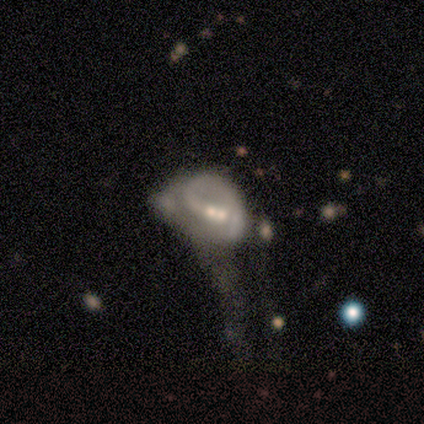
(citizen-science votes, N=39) Smooth or featured? 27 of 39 (69%) said featured or disk. Edge-on disk? 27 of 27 (100%) said no. Bar? 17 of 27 (63%) said no. Spiral arms? 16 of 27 (59%) said yes. Spiral winding? 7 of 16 (44%) said tight. Spiral arm count? 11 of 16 (69%) said 1. Bulge size? 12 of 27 (44%, tied with small) said moderate. Merging? 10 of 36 (28%) said merger.